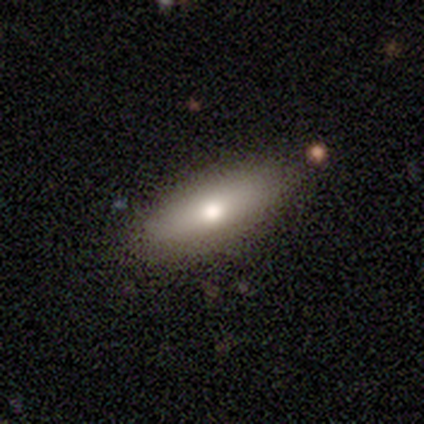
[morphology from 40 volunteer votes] smooth_or_featured: smooth (p=0.50) [alt: featured or disk p=0.38]
how_rounded: cigar-shaped (p=0.50) [alt: in between p=0.45]
merging: none (p=0.83) [alt: minor disturbance p=0.14]